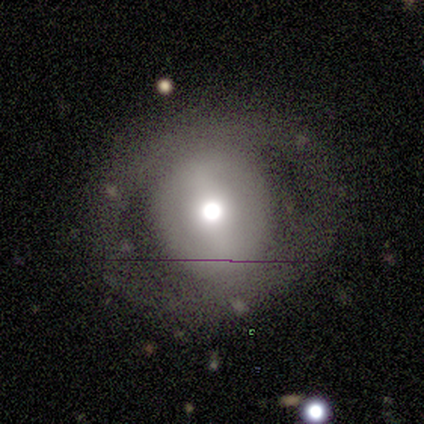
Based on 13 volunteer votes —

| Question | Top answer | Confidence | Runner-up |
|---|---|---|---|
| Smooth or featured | featured or disk | 69% | smooth (31%) |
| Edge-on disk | no | 89% | yes (11%) |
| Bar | no | 50% | strong (38%) |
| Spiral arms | no | 88% | yes (12%) |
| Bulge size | large | 38% | tied: moderate (38%) |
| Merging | none | 62% | minor disturbance (31%) |